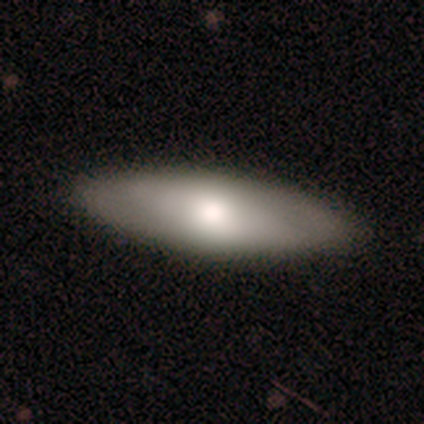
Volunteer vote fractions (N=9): smooth 56%, featured or disk 33%, star or artifact 11%. Down the decision tree: how rounded — in between (80%); merging — none (100%).